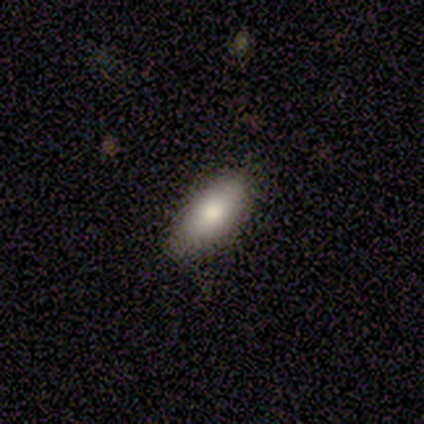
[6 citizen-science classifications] Smooth or featured? smooth (83%)
How rounded? in between (60%)
Merging? none (100%)